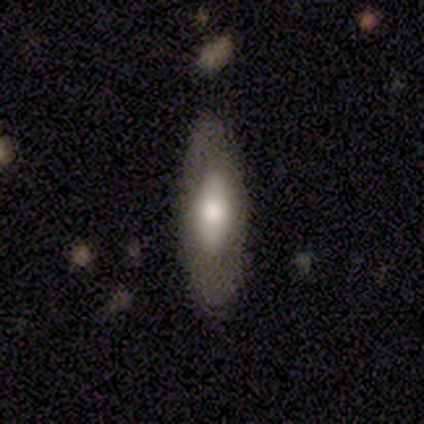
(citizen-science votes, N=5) Overall: smooth (80%). How rounded: in between (50%, tied with cigar-shaped). Merging: none (40%, tied with major disturbance).